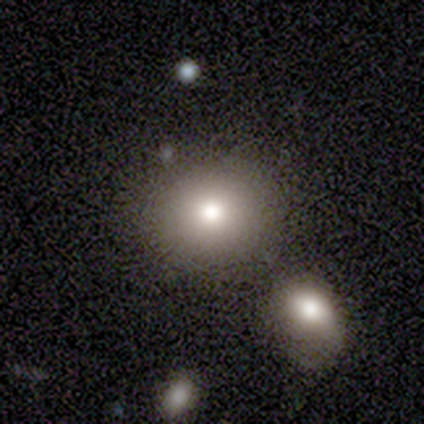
This appears to be a smooth galaxy with no disk features (60%) that is round (67%). Merging: none (75%).